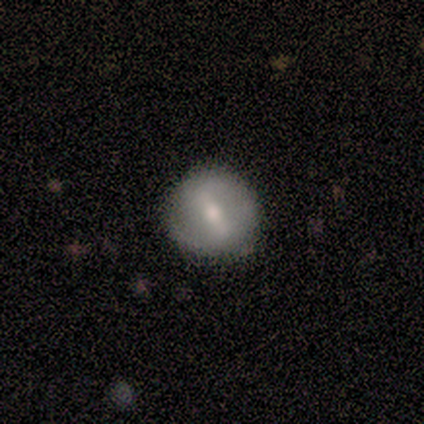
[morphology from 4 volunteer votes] A featured or disk galaxy (75%) with a strong bar (100%), no spiral arms (67%) and a moderate central bulge (100%).

Vote fractions:
- Smooth or featured? featured or disk: 75% / smooth: 25% / star or artifact: 0%
- Edge-on disk? no: 100% / yes: 0%
- Bar? strong: 100% / weak: 0% / no: 0%
- Spiral arms? no: 67% / yes: 33%
- Bulge size? moderate: 100% / dominant: 0% / large: 0% / small: 0% / none: 0%
- Merging? none: 100% / minor disturbance: 0% / major disturbance: 0% / merger: 0%